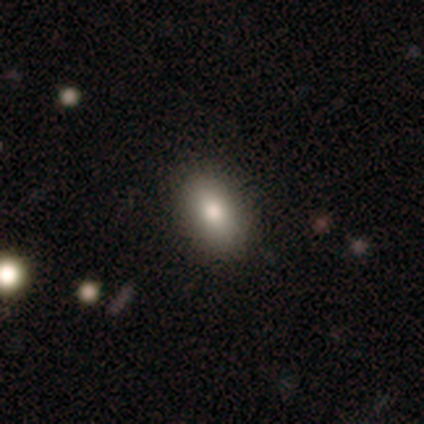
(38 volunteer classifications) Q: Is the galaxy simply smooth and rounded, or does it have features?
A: smooth — 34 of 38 (89%).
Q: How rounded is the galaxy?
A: in between — 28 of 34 (82%).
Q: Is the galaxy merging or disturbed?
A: none — 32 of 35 (91%).